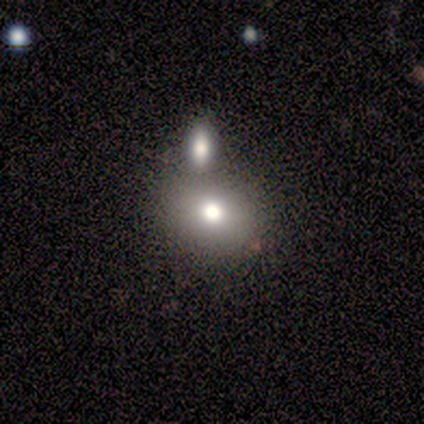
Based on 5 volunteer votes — Smooth or featured? 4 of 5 (80%) said smooth. How rounded? 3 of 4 (75%) said in between. Merging? 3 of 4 (75%) said none.